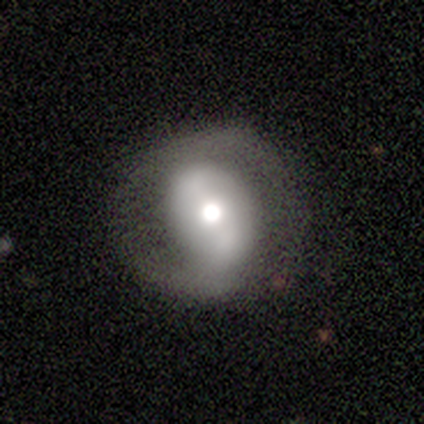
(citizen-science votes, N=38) This is likely a featured or disk galaxy (68%). It is clearly not viewed edge-on (100%). Bar: marginally strong (38%). Spiral arm pattern: likely yes (62%). Spiral arm count: clearly 2 (88%). Spiral winding: marginally loose (38%). Central bulge: likely moderate (62%). Merging: likely none (69%).